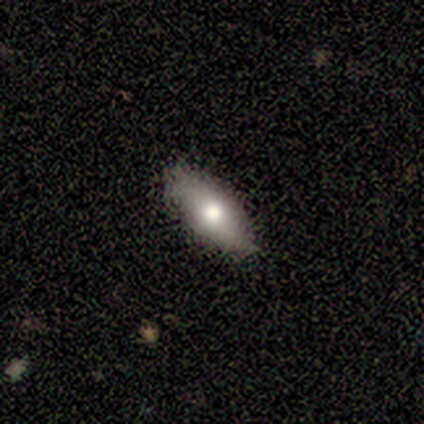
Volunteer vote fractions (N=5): smooth_or_featured: smooth (p=0.80) [alt: featured or disk p=0.20]
how_rounded: in between (p=1.00)
merging: none (p=1.00)